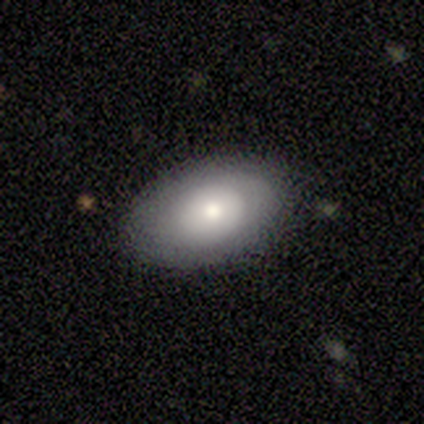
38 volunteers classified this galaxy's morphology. Smooth or featured? 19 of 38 (50%) said smooth. How rounded? 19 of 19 (100%) said in between. Merging? 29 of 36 (81%) said none.